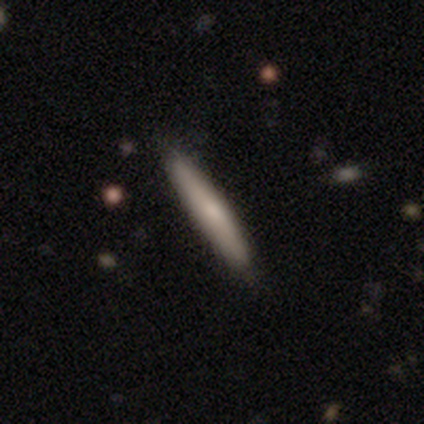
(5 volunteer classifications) Q: Smooth or featured?
A: smooth (60%); runner-up: featured or disk (40%)
Q: How rounded?
A: cigar-shaped (100%)
Q: Merging?
A: none (80%); runner-up: minor disturbance (20%)